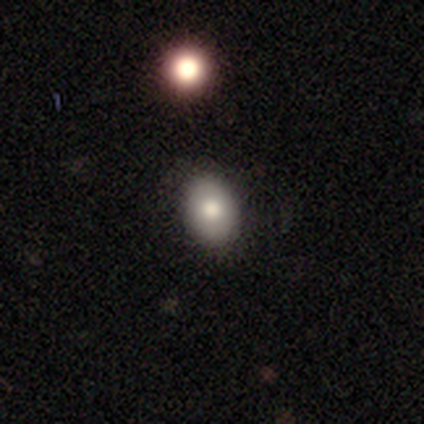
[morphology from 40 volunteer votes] smooth 70%, featured or disk 20%, star or artifact 10%. Down the decision tree: how rounded — in between (71%); merging — none (86%).